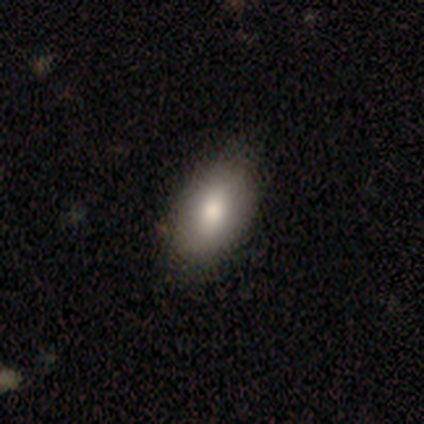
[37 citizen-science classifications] Smooth or featured?
  - smooth: 78% *
  - featured or disk: 11%
  - star or artifact: 11%
How rounded?
  - in between: 93% *
  - round: 7%
  - cigar-shaped: 0%
Merging?
  - none: 85% *
  - minor disturbance: 12%
  - major disturbance: 3%
  - merger: 0%